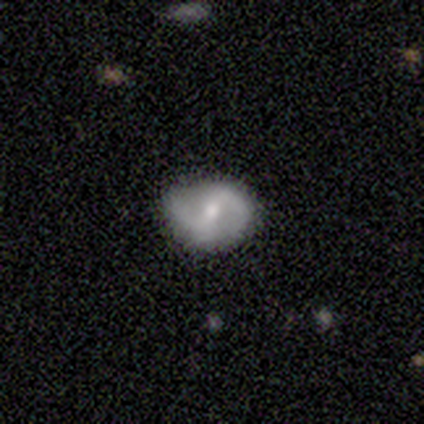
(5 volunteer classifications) Smooth or featured? smooth (40%, tied with featured or disk)
How rounded? in between (100%)
Merging? none (75%)